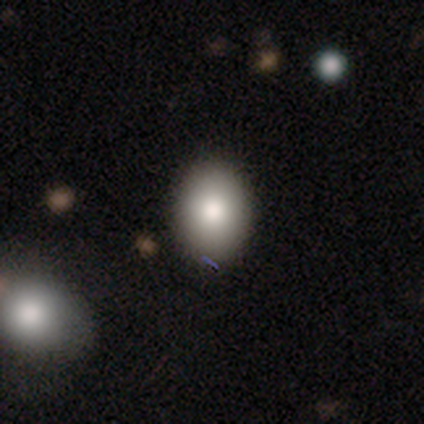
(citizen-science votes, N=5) Smooth or featured?
  - smooth: 80% *
  - featured or disk: 20%
  - star or artifact: 0%
How rounded?
  - round: 50% * (tied)
  - in between: 50% * (tied)
  - cigar-shaped: 0%
Merging?
  - none: 80% *
  - minor disturbance: 20%
  - major disturbance: 0%
  - merger: 0%